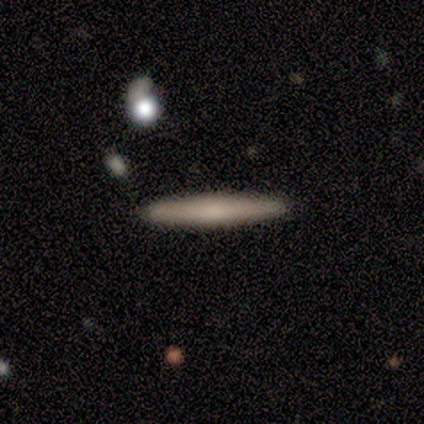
Overall: smooth (67%; featured or disk 33%). How rounded: cigar-shaped (100%). Merging: none (100%).